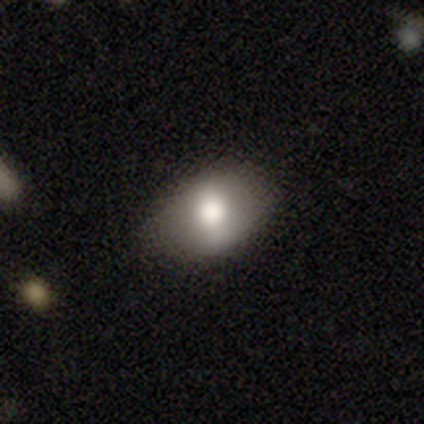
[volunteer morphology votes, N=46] Overall: smooth (76%). How rounded: in between (71%). Merging: none (79%).